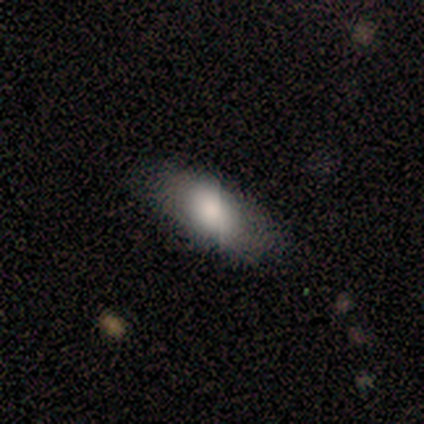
This is clearly a smooth galaxy (86%). How rounded: clearly in between (100%). Merging: clearly none (83%).